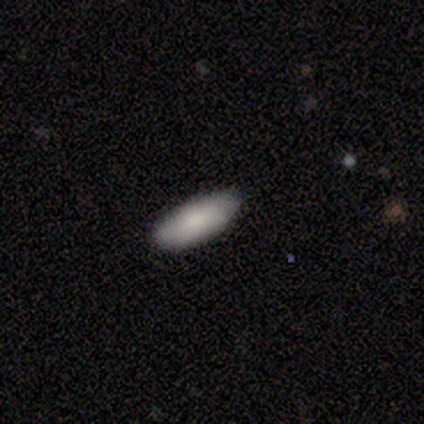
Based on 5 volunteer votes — Smooth or featured? 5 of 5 (100%) said smooth. How rounded? 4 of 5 (80%) said in between. Merging? 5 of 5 (100%) said none.